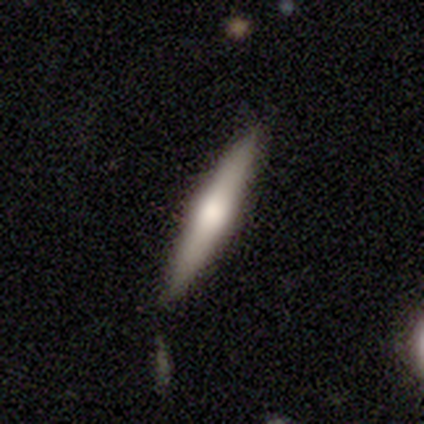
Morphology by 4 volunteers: Smooth or featured? featured or disk (75%)
Edge-on disk? yes (100%)
Edge-on bulge? rounded (100%)
Merging? none (75%)